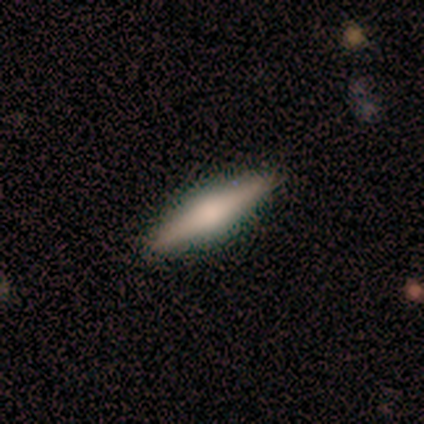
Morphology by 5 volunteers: Smooth or featured? 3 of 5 (60%) said smooth. How rounded? 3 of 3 (100%) said cigar-shaped. Merging? 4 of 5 (80%) said none.